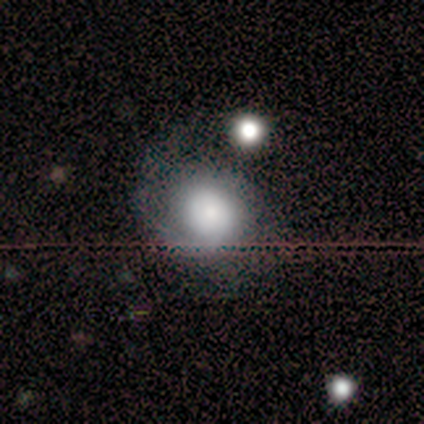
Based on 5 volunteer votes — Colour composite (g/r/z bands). It shows a smooth galaxy with no disk features (60%) that is round (100%). Merging: none (80%).